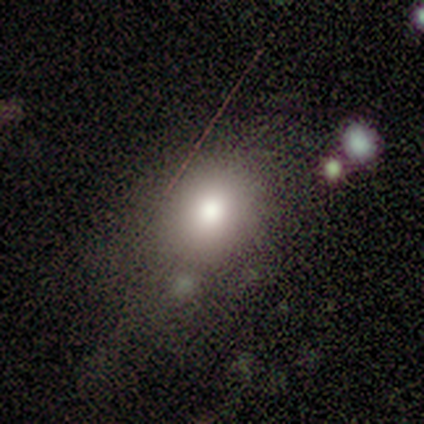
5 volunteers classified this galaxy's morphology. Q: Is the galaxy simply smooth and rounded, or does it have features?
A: smooth — 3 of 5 (60%).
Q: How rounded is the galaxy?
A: round — 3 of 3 (100%).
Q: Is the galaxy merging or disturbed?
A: none — 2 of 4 (50%).